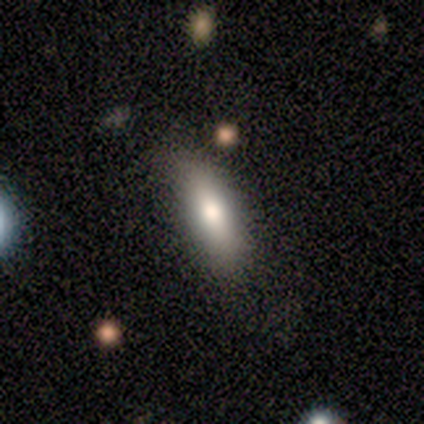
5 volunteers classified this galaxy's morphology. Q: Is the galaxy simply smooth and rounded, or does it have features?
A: smooth — 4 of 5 (80%).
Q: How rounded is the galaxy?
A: in between — 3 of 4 (75%).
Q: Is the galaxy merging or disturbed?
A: none — 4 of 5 (80%).